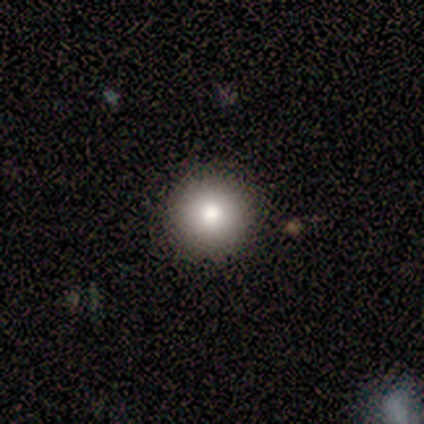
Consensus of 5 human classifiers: Overall: smooth (60%; featured or disk 20%). How rounded: round (100%). Merging: none (100%).